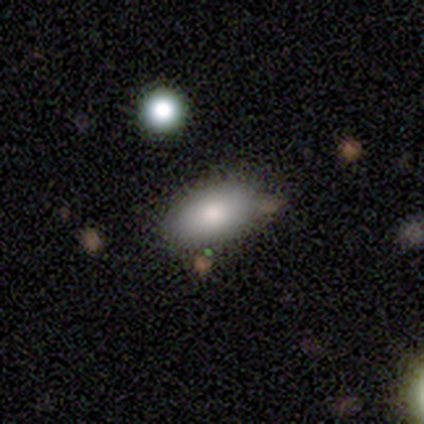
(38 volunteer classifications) Smooth or featured?
  - smooth: 84% *
  - featured or disk: 11%
  - star or artifact: 5%
How rounded?
  - in between: 94% *
  - cigar-shaped: 6%
  - round: 0%
Merging?
  - none: 78% *
  - minor disturbance: 17%
  - merger: 6%
  - major disturbance: 0%